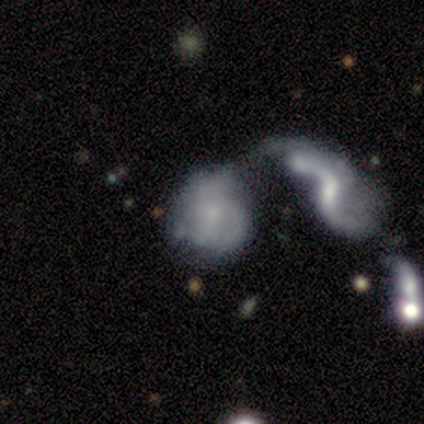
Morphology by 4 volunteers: Smooth or featured?
  - featured or disk: 75% *
  - smooth: 25%
  - star or artifact: 0%
Edge-on disk?
  - no: 100% *
  - yes: 0%
Bar?
  - no: 100% *
  - strong: 0%
  - weak: 0%
Spiral arms?
  - yes: 67% *
  - no: 33%
Spiral winding?
  - tight: 50% * (tied)
  - medium: 50% * (tied)
  - loose: 0%
Spiral arm count?
  - 3: 50% * (tied)
  - can't tell: 50% * (tied)
  - 1: 0%
  - 2: 0%
  - 4: 0%
  - more than 4: 0%
Bulge size?
  - small: 67% *
  - moderate: 33%
  - dominant: 0%
  - large: 0%
  - none: 0%
Merging?
  - minor disturbance: 50% * (tied)
  - merger: 50% * (tied)
  - none: 0%
  - major disturbance: 0%